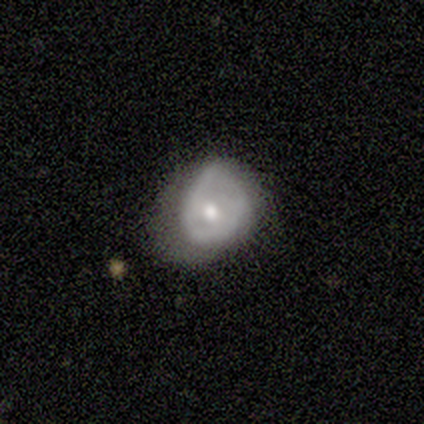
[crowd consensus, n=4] Q: Smooth or featured?
A: smooth (100%)
Q: How rounded?
A: round (75%); runner-up: in between (25%)
Q: Merging?
A: minor disturbance (50%); runner-up: none (25%)